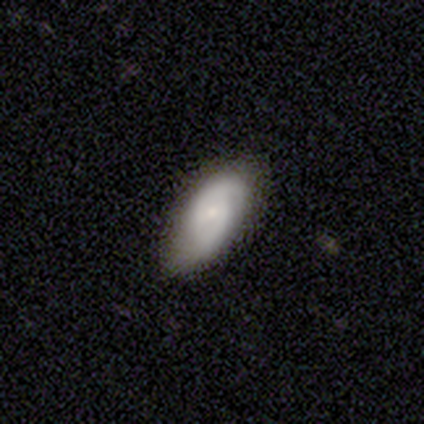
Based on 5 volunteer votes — This is clearly a featured or disk galaxy (80%). It is clearly not viewed edge-on (100%). Bar: possibly weak (50%, tied with no). Spiral arm pattern: clearly yes (100%). Spiral arm count: clearly 2 (100%). Spiral winding: possibly medium (50%). Central bulge: possibly moderate (50%, tied with small). Merging: likely none (60%).